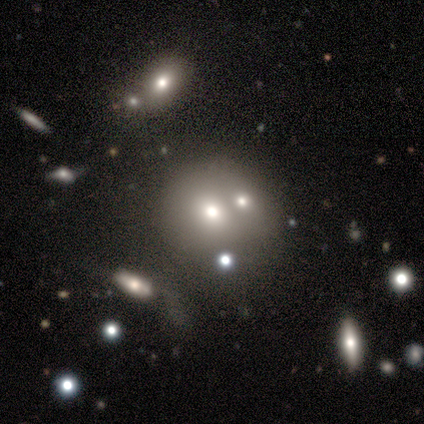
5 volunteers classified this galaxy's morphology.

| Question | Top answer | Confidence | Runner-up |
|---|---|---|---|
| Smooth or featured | star or artifact | 60% | smooth (40%) |